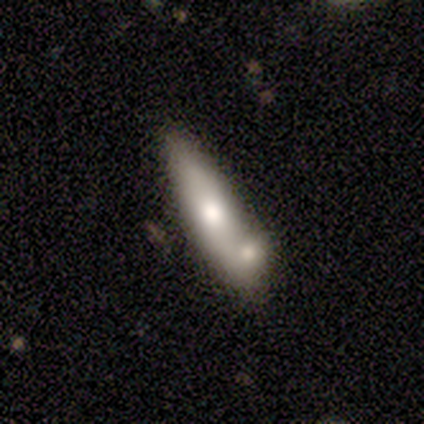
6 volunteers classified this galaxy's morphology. Volunteers were most divided on "smooth or featured" (2-way tie): smooth: 50%, featured or disk: 50%, star or artifact: 0%. More confident: merging — none (83%); how rounded — in between (67%).